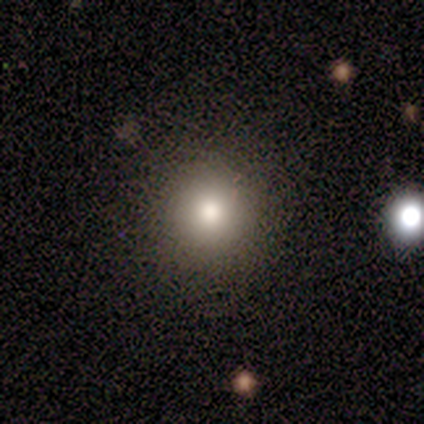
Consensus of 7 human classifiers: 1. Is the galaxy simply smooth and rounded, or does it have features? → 100% smooth, 0% featured or disk, 0% star or artifact.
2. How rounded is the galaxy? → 100% round, 0% in between, 0% cigar-shaped.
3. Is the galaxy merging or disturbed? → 100% none, 0% minor disturbance, 0% major disturbance, 0% merger.